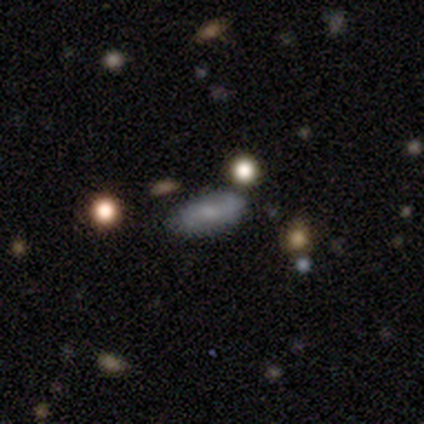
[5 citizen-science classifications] Q: Smooth or featured?
A: smooth (40%); tied with: featured or disk (40%)
Q: How rounded?
A: in between (50%); tied with: cigar-shaped (50%)
Q: Merging?
A: none (100%)